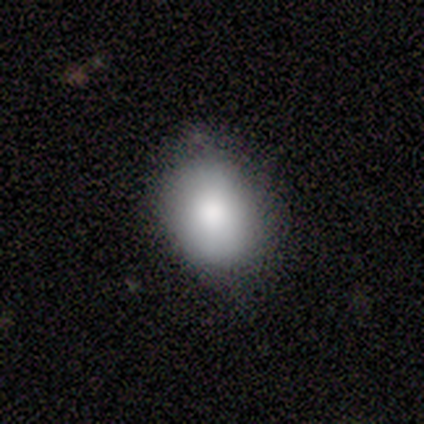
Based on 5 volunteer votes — This appears to be a smooth galaxy with no disk features (100%) that is in between round and cigar-shaped (60%). Merging: none (80%).